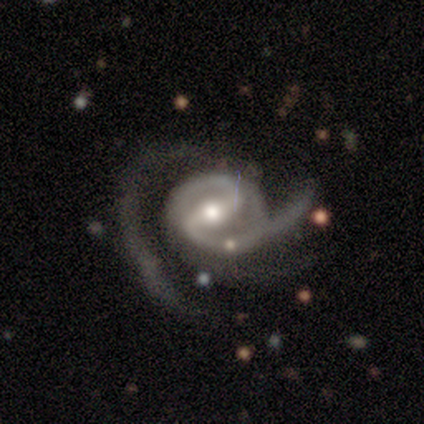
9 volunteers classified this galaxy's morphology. type=featured or disk (78%); edge-on=no (100%); bar=strong (86%); spiral arms=yes (100%); winding=tight (43%); arm count=3 (43%); bulge=moderate (100%); merging=minor disturbance (43%, tied with major disturbance).